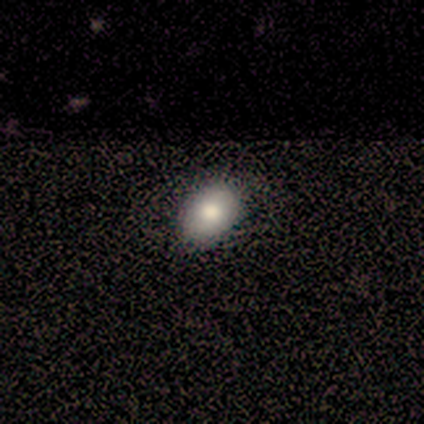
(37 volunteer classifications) This is likely a smooth galaxy (78%). How rounded: likely in between (79%). Merging: clearly none (94%).